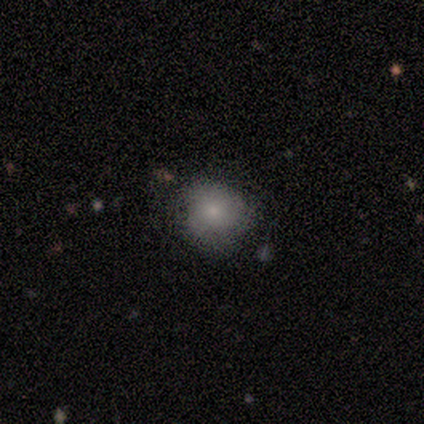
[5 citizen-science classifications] Smooth or featured? smooth (60%)
How rounded? round (100%)
Merging? none (60%)